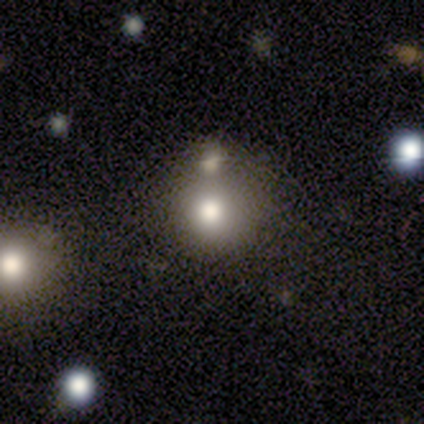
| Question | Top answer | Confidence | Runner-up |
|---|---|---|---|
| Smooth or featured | smooth | 100% | — |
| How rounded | round | 100% | — |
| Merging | none | 50% | tied: minor disturbance (50%) |